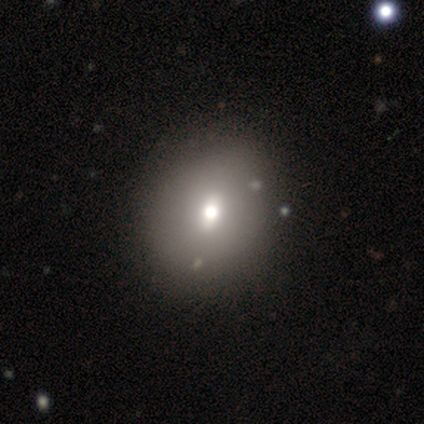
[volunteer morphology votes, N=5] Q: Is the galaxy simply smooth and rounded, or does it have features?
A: smooth — 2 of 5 (40%, tied with featured or disk).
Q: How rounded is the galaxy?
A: round — 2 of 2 (100%).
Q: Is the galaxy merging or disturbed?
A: minor disturbance — 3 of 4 (75%).